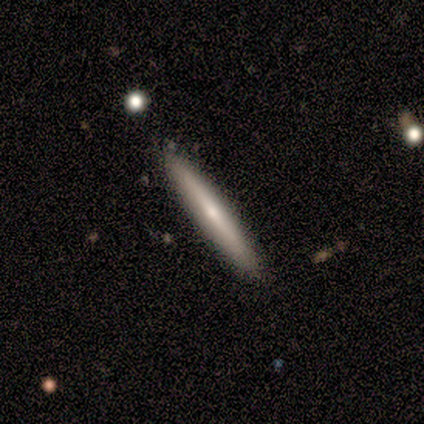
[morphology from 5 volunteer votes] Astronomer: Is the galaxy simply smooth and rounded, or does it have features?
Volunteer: featured or disk — 60% (runner-up: smooth, 40%).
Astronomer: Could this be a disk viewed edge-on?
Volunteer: yes — 100%.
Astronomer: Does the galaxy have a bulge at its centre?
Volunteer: none — 67%.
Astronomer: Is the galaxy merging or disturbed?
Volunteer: none — 100%.